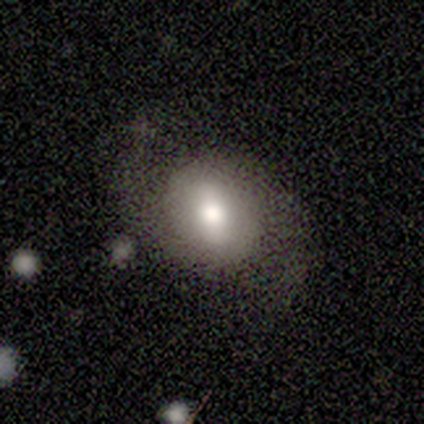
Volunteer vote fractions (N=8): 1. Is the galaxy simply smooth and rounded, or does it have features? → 88% featured or disk, 12% star or artifact, 0% smooth.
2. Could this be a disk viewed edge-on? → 100% no, 0% yes.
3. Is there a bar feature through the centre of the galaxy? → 71% weak, 29% no, 0% strong.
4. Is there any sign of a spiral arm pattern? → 86% yes, 14% no.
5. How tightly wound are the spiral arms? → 67% loose, 17% tight, 17% medium.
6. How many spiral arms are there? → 100% 2, 0% 1, 0% 3, 0% 4, 0% more than 4, 0% can't tell.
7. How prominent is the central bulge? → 100% moderate, 0% dominant, 0% large, 0% small, 0% none.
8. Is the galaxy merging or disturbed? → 100% none, 0% minor disturbance, 0% major disturbance, 0% merger.